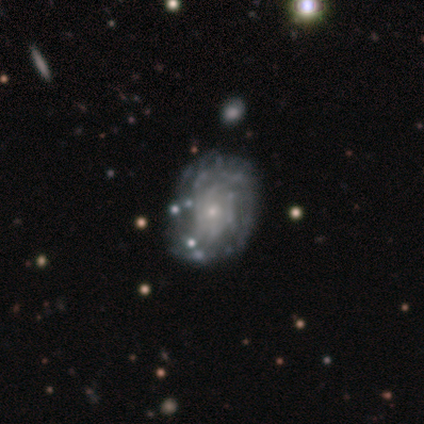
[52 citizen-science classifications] This appears to be a featured or disk galaxy (83%) with no bar (88%), tight (73%) spiral arms (79%) and a small central bulge (81%). Merging: none (54%).